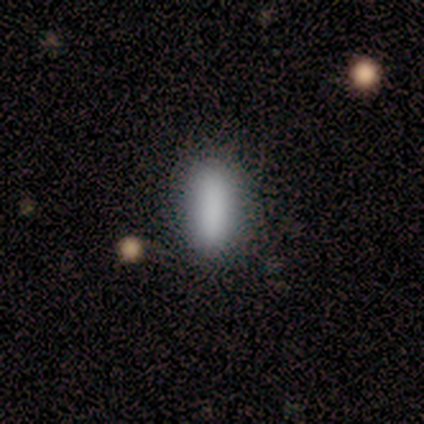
smooth-or-featured: smooth: 100% | featured or disk: 0% | star or artifact: 0%
  how-rounded: cigar-shaped: 60% | in between: 40% | round: 0%
  merging: none: 100% | minor disturbance: 0% | major disturbance: 0% | merger: 0%